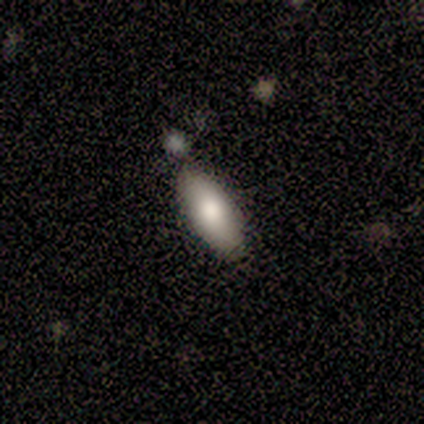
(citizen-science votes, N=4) smooth 75%, featured or disk 25%, star or artifact 0%. Down the decision tree: how rounded — in between (67%); merging — none (100%).